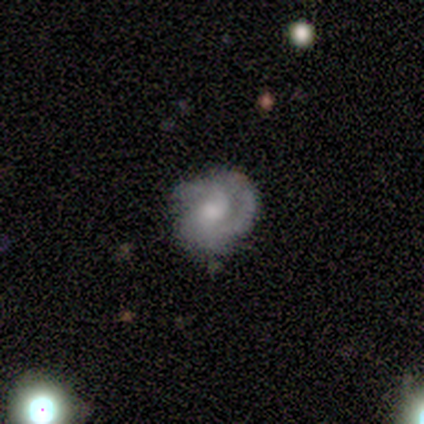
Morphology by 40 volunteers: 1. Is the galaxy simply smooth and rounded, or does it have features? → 68% featured or disk, 18% smooth, 15% star or artifact.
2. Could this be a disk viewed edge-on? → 96% no, 4% yes.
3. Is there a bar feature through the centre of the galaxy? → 77% no, 19% weak, 4% strong.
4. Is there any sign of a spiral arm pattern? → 85% yes, 15% no.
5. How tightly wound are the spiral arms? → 59% tight, 27% medium, 14% loose.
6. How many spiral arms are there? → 55% 2, 23% 1, 14% can't tell, 9% 3, 0% 4, 0% more than 4.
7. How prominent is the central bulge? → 62% moderate, 19% small, 15% large, 4% none, 0% dominant.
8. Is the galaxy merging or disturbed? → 47% none, 41% minor disturbance, 12% major disturbance, 0% merger.